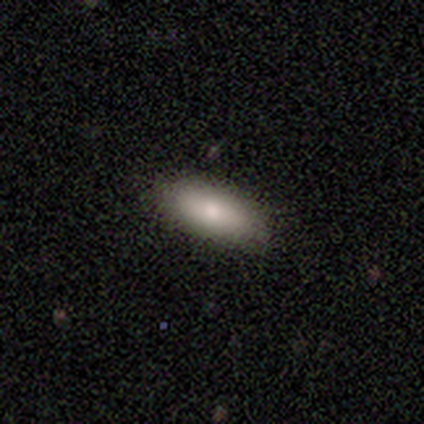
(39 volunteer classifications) A smooth galaxy with no disk features (85%) that is in between round and cigar-shaped (76%). Merging: none (83%).